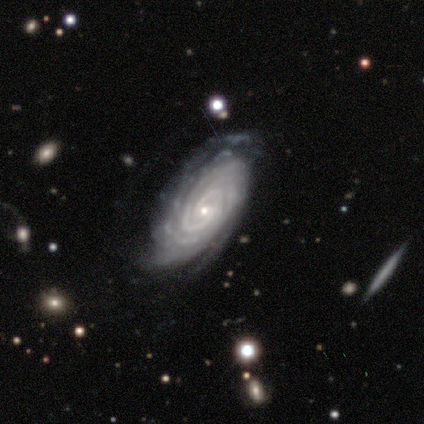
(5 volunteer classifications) Morphology: type=featured or disk (100%); edge-on=no (100%); bar=no (60%); spiral arms=yes (100%); winding=tight (100%); arm count=2 (40%); bulge=small (80%); merging=none (80%).